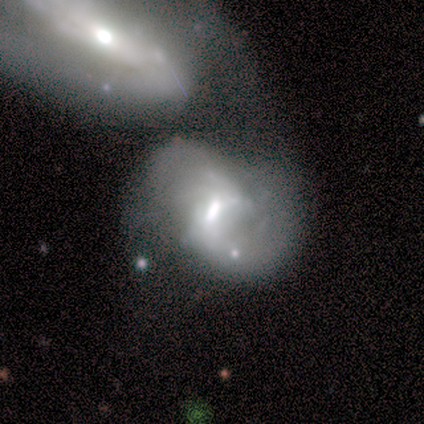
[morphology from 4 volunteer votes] A featured or disk galaxy (75%) with a weak bar (100%), 2 (100%) tight (33%, tied with medium and loose) spiral arms (100%) and a moderate central bulge (67%).

Vote fractions:
- Smooth or featured? featured or disk: 75% / smooth: 25% / star or artifact: 0%
- Edge-on disk? no: 100% / yes: 0%
- Bar? weak: 100% / strong: 0% / no: 0%
- Spiral arms? yes: 100% / no: 0%
- Spiral winding? tight: 33% (tied) / medium: 33% (tied) / loose: 33% (tied)
- Spiral arm count? 2: 100% / 1: 0% / 3: 0% / 4: 0% / more than 4: 0% / can't tell: 0%
- Bulge size? moderate: 67% / large: 33% / dominant: 0% / small: 0% / none: 0%
- Merging? minor disturbance: 50% (tied) / merger: 50% (tied) / none: 0% / major disturbance: 0%